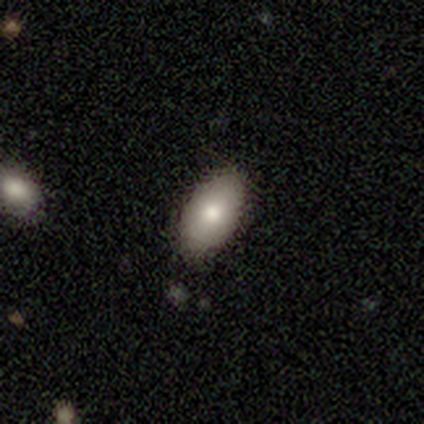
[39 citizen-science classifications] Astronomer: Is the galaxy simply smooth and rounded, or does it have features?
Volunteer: smooth — 77%.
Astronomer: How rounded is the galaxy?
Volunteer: in between — 93%.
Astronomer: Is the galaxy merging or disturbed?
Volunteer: none — 83%.